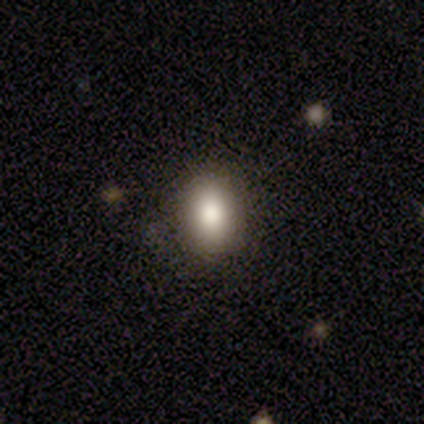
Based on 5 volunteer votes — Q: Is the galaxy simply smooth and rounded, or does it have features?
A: smooth — 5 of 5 (100%).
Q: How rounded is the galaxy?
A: in between — 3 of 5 (60%).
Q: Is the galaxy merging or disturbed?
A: none — 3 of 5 (60%).